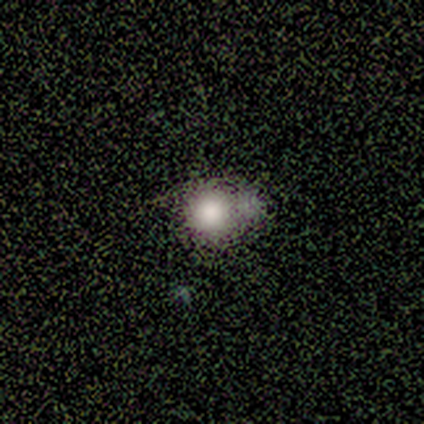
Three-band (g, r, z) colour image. It shows a smooth galaxy with no disk features (78%) that is round (86%). Merging: none (29%, tied with minor disturbance and merger).